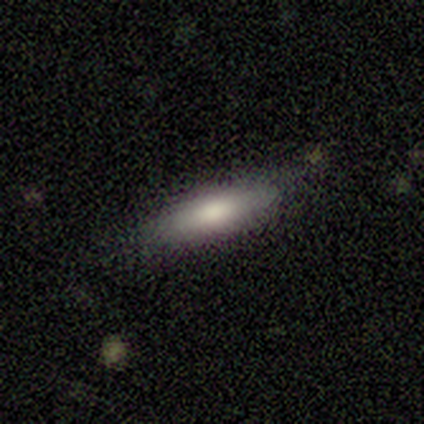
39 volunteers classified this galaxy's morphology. Smooth or featured?
  - smooth: 69% *
  - featured or disk: 28%
  - star or artifact: 3%
How rounded?
  - cigar-shaped: 59% *
  - in between: 41%
  - round: 0%
Merging?
  - none: 79% *
  - minor disturbance: 16%
  - major disturbance: 3%
  - merger: 3%